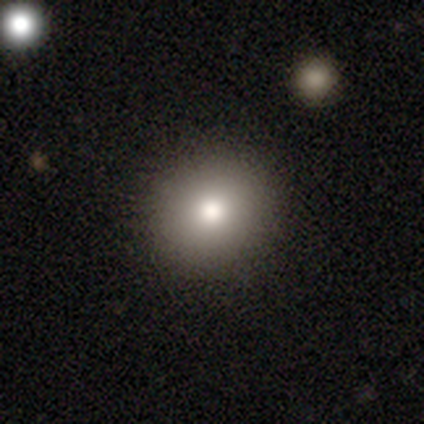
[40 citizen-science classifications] Q: Smooth or featured?
A: smooth (85%); runner-up: featured or disk (10%)
Q: How rounded?
A: round (88%); runner-up: in between (12%)
Q: Merging?
A: none (95%); runner-up: major disturbance (3%)